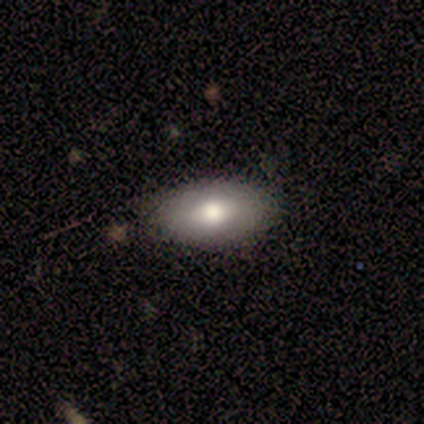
A smooth galaxy with no disk features (60%) that is in between round and cigar-shaped (100%).

Vote fractions:
- Smooth or featured? smooth: 60% / featured or disk: 40% / star or artifact: 0%
- How rounded? in between: 100% / round: 0% / cigar-shaped: 0%
- Merging? none: 80% / minor disturbance: 20% / major disturbance: 0% / merger: 0%